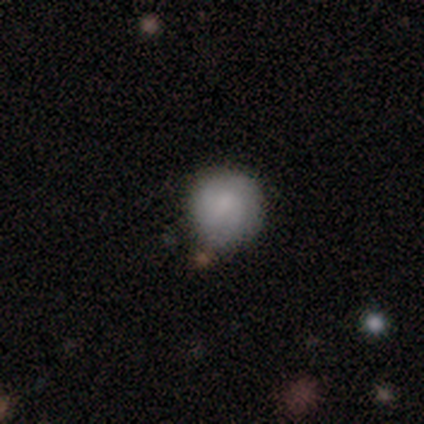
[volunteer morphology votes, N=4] smooth-or-featured: smooth: 100% | featured or disk: 0% | star or artifact: 0%
  how-rounded: round: 100% | in between: 0% | cigar-shaped: 0%
  merging: none: 50% | minor disturbance: 25% | merger: 25% | major disturbance: 0%